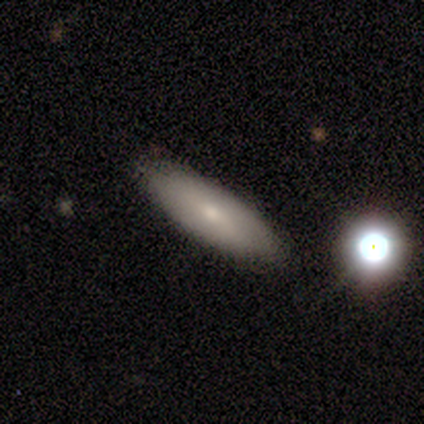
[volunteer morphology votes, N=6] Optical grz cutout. It shows a smooth galaxy with no disk features (67%) that is in between round and cigar-shaped (50%). Merging: none (75%).